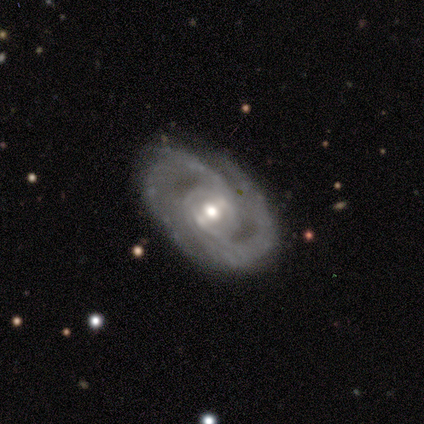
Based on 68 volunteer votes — This appears to be a featured or disk galaxy (91%) with a weak bar (45%), 2 (71%) medium (53%) spiral arms (100%) and a moderate central bulge (74%). Merging: none (80%).